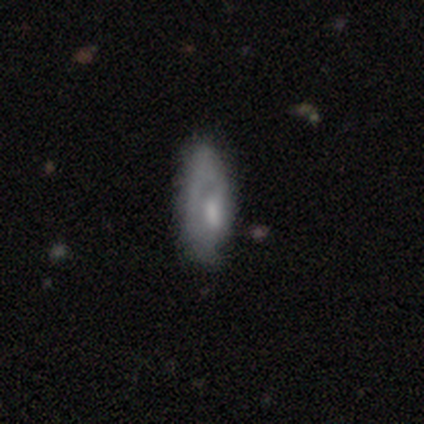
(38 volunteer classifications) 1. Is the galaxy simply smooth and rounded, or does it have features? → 58% featured or disk, 39% smooth, 3% star or artifact.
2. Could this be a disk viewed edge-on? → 86% no, 14% yes.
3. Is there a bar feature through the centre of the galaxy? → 58% no, 37% weak, 5% strong.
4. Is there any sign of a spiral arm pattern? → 58% yes, 42% no.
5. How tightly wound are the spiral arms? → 73% tight, 18% medium, 9% loose.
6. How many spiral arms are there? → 55% 1, 27% can't tell, 18% 2, 0% 3, 0% 4, 0% more than 4.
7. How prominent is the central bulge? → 53% moderate, 32% small, 11% large, 5% none, 0% dominant.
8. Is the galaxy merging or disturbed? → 46% none, 24% major disturbance, 8% minor disturbance, 5% merger.